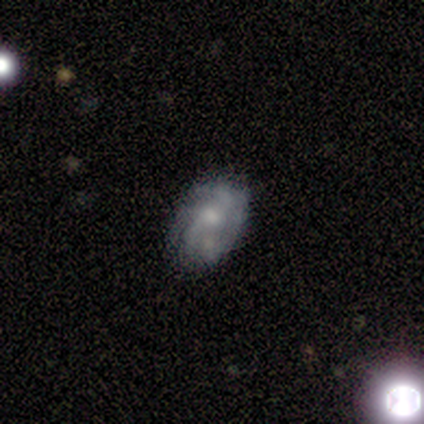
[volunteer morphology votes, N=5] Smooth or featured?
  - featured or disk: 80% *
  - star or artifact: 20%
  - smooth: 0%
Edge-on disk?
  - no: 100% *
  - yes: 0%
Bar?
  - no: 100% *
  - strong: 0%
  - weak: 0%
Spiral arms?
  - no: 75% *
  - yes: 25%
Bulge size?
  - moderate: 50% * (tied)
  - small: 50% * (tied)
  - dominant: 0%
  - large: 0%
  - none: 0%
Merging?
  - none: 100% *
  - minor disturbance: 0%
  - major disturbance: 0%
  - merger: 0%